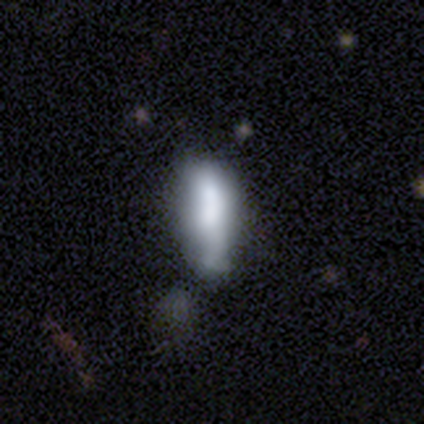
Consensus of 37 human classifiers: A smooth galaxy with no disk features (51%) that is in between round and cigar-shaped (74%). Merging: none (29%).